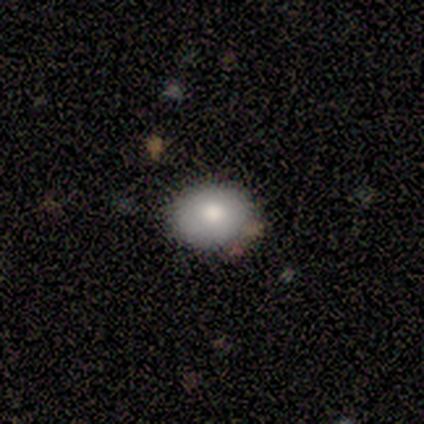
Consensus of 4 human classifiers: A smooth galaxy with no disk features (75%) that is in between round and cigar-shaped (100%).

Vote fractions:
- Smooth or featured? smooth: 75% / featured or disk: 25% / star or artifact: 0%
- How rounded? in between: 100% / round: 0% / cigar-shaped: 0%
- Merging? none: 75% / merger: 25% / minor disturbance: 0% / major disturbance: 0%